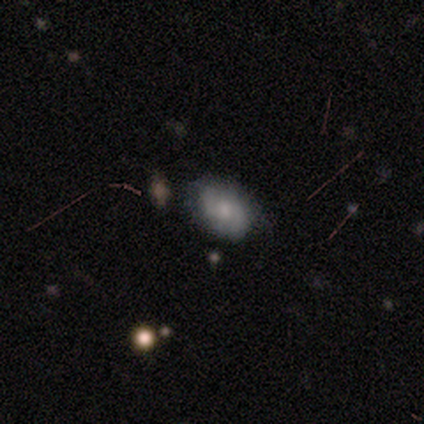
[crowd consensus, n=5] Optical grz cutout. It shows a featured or disk galaxy (60%) with no bar (67%), no spiral arms (67%) and a small central bulge (67%). Merging: none (60%).